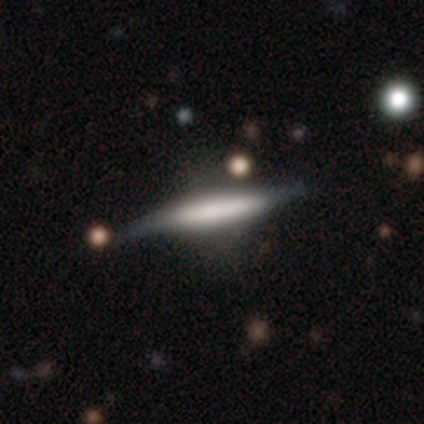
Smooth or featured? 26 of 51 (51%) said featured or disk. Edge-on disk? 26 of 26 (100%) said yes. Edge-on bulge? 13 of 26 (50%) said boxy. Merging? 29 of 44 (66%) said none.